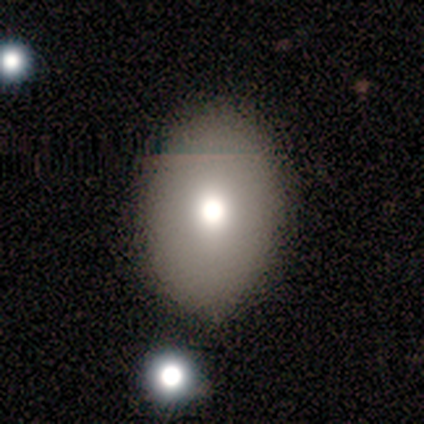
This is clearly a smooth galaxy (92%). How rounded: clearly in between (92%). Merging: likely none (79%).